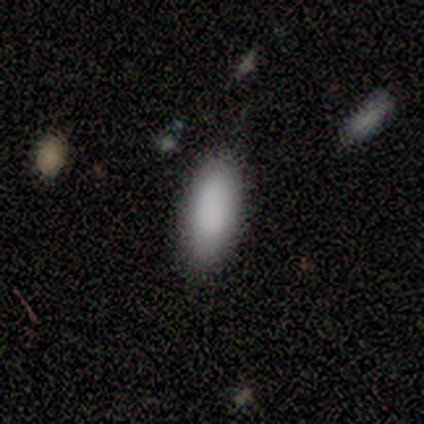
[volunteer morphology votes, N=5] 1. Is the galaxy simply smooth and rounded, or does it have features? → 40% smooth (tied), 40% featured or disk (tied), 20% star or artifact.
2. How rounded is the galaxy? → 50% in between (tied), 50% cigar-shaped (tied), 0% round.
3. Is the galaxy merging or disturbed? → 75% none, 25% minor disturbance, 0% major disturbance, 0% merger.